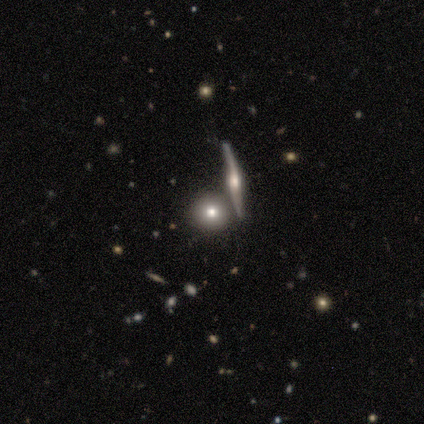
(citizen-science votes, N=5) Smooth or featured?
  - smooth: 60% *
  - featured or disk: 40%
  - star or artifact: 0%
How rounded?
  - round: 100% *
  - in between: 0%
  - cigar-shaped: 0%
Merging?
  - none: 100% *
  - minor disturbance: 0%
  - major disturbance: 0%
  - merger: 0%